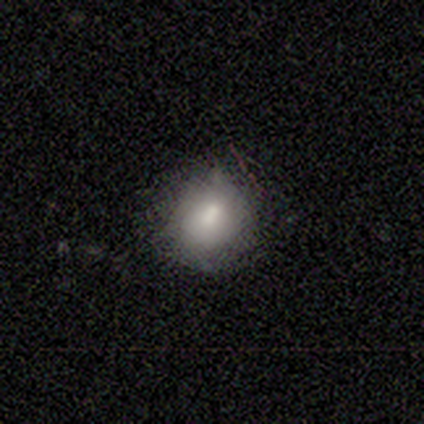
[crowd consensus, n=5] A smooth galaxy with no disk features (100%) that is round (80%).

Vote fractions:
- Smooth or featured? smooth: 100% / featured or disk: 0% / star or artifact: 0%
- How rounded? round: 80% / in between: 20% / cigar-shaped: 0%
- Merging? none: 60% / minor disturbance: 40% / major disturbance: 0% / merger: 0%